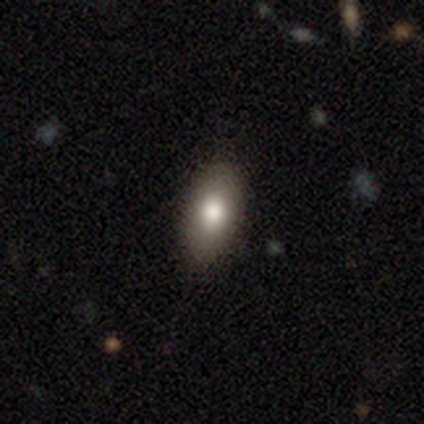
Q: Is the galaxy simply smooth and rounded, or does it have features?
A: smooth — 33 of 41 (80%).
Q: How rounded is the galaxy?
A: in between — 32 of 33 (97%).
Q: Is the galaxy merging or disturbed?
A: none — 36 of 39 (92%).